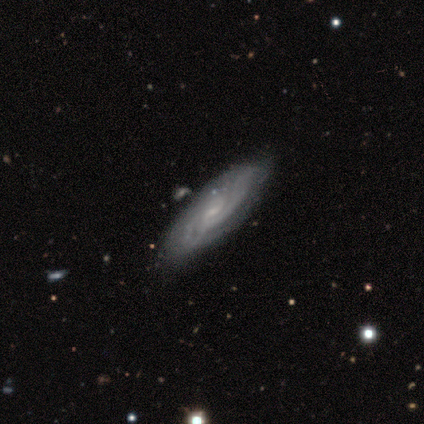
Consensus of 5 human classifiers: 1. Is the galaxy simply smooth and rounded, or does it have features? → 80% featured or disk, 20% smooth, 0% star or artifact.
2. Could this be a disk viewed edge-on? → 100% no, 0% yes.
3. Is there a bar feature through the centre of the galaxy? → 75% no, 25% weak, 0% strong.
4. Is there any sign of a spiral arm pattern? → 75% yes, 25% no.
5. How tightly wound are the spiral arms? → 67% tight, 33% loose, 0% medium.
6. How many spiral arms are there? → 67% can't tell, 33% 2, 0% 1, 0% 3, 0% 4, 0% more than 4.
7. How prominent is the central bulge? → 50% moderate (tied), 50% small (tied), 0% dominant, 0% large, 0% none.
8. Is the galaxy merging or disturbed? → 60% none, 40% minor disturbance, 0% major disturbance, 0% merger.